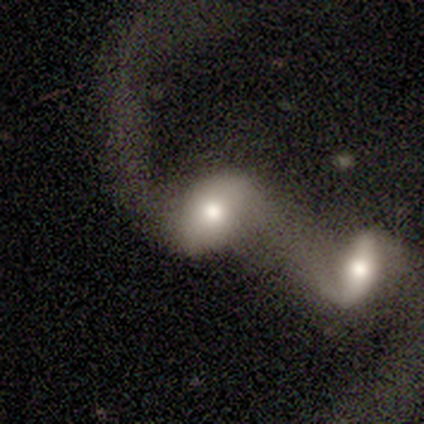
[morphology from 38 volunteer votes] smooth_or_featured: featured or disk (p=0.58) [alt: smooth p=0.37]
disk_edge_on: no (p=1.00)
bar: no (p=0.59) [alt: weak p=0.23]
has_spiral_arms: yes (p=0.59) [alt: no p=0.41]
spiral_winding: loose (p=0.92) [alt: tight p=0.08]
spiral_arm_count: 2 (p=0.85) [alt: 1 p=0.15]
bulge_size: moderate (p=0.64) [alt: large p=0.18]
merging: merger (p=0.86) [alt: major disturbance p=0.08]